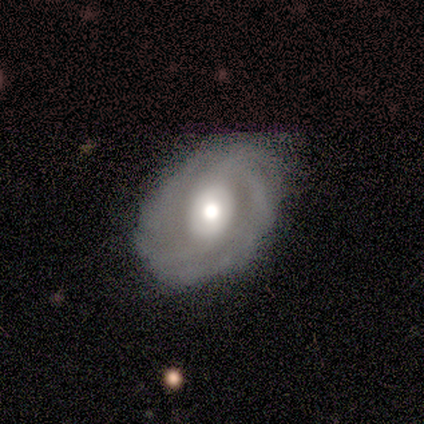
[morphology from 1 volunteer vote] Smooth or featured?
  - smooth: 100% *
  - featured or disk: 0%
  - star or artifact: 0%
How rounded?
  - in between: 100% *
  - round: 0%
  - cigar-shaped: 0%
Merging?
  - minor disturbance: 100% *
  - none: 0%
  - major disturbance: 0%
  - merger: 0%